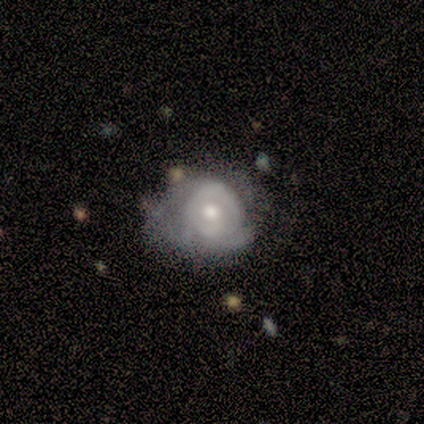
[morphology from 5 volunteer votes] Smooth or featured? 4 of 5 (80%) said featured or disk. Edge-on disk? 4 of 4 (100%) said no. Bar? 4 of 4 (100%) said no. Spiral arms? 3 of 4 (75%) said yes. Spiral winding? 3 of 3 (100%) said tight. Spiral arm count? 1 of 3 (33%, tied with 3 and can't tell) said 1. Bulge size? 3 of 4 (75%) said small. Merging? 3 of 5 (60%) said minor disturbance.